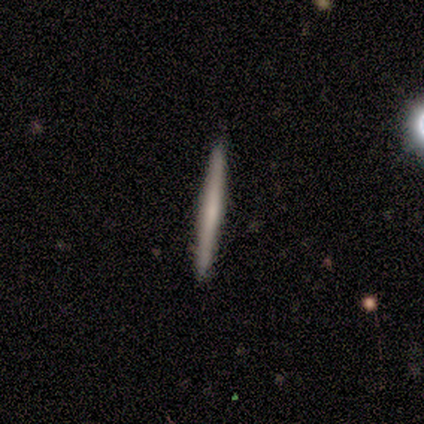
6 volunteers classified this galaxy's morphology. A featured or disk galaxy (67%) viewed edge-on (100%) with no central bulge (75%). Merging: none (100%).